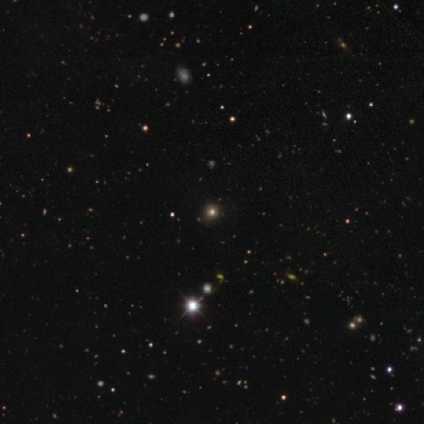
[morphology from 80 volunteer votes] smooth-or-featured: star or artifact: 68% | smooth: 31% | featured or disk: 1%